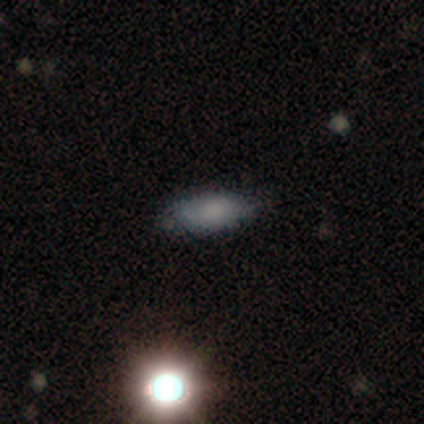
A smooth galaxy with no disk features (60%) that is in between round and cigar-shaped (100%). Merging: none (75%).